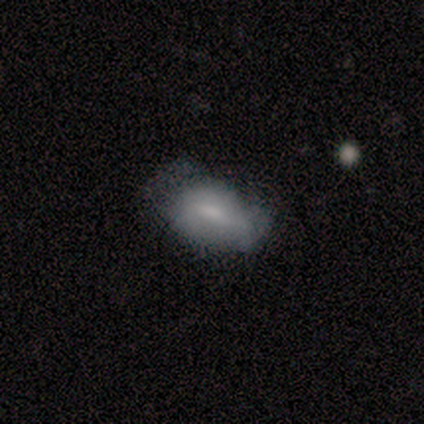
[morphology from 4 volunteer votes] Q: Smooth or featured?
A: smooth (75%); runner-up: featured or disk (25%)
Q: How rounded?
A: in between (100%)
Q: Merging?
A: none (50%); tied with: minor disturbance (50%)